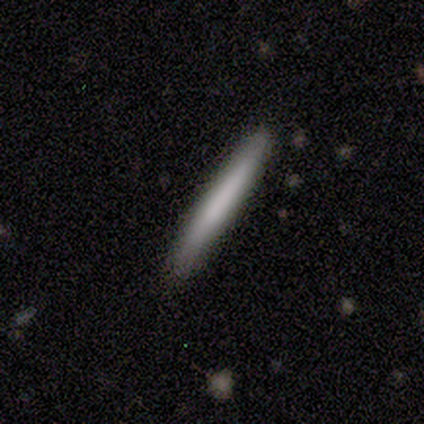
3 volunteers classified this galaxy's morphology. A smooth galaxy with no disk features (100%) that is cigar-shaped (100%).

Vote fractions:
- Smooth or featured? smooth: 100% / featured or disk: 0% / star or artifact: 0%
- How rounded? cigar-shaped: 100% / round: 0% / in between: 0%
- Merging? none: 100% / minor disturbance: 0% / major disturbance: 0% / merger: 0%